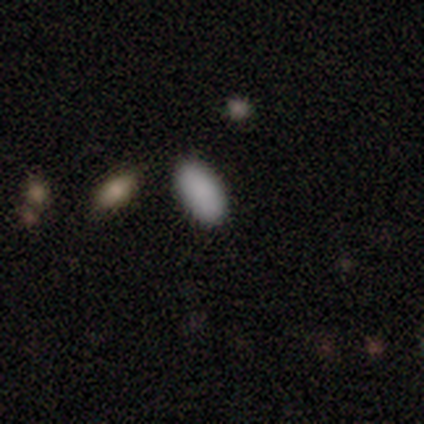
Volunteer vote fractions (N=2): smooth 100%, featured or disk 0%, star or artifact 0%. Down the decision tree: how rounded — in between (100%); merging — none (100%).